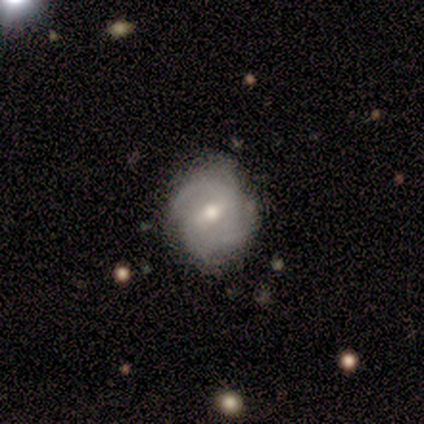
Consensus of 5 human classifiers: Smooth or featured?
  - featured or disk: 100% *
  - smooth: 0%
  - star or artifact: 0%
Edge-on disk?
  - no: 100% *
  - yes: 0%
Bar?
  - weak: 80% *
  - strong: 20%
  - no: 0%
Spiral arms?
  - yes: 80% *
  - no: 20%
Spiral winding?
  - medium: 75% *
  - tight: 25%
  - loose: 0%
Spiral arm count?
  - 2: 50% *
  - 3: 25%
  - can't tell: 25%
  - 1: 0%
  - 4: 0%
  - more than 4: 0%
Bulge size?
  - moderate: 80% *
  - small: 20%
  - dominant: 0%
  - large: 0%
  - none: 0%
Merging?
  - none: 60% *
  - minor disturbance: 40%
  - major disturbance: 0%
  - merger: 0%